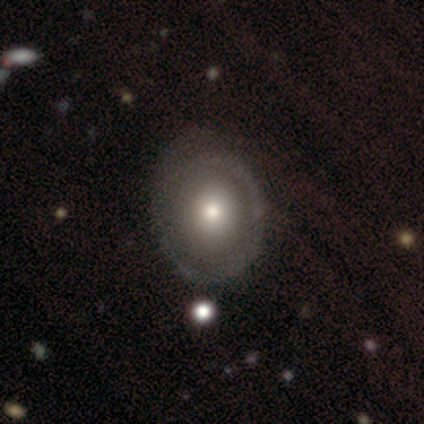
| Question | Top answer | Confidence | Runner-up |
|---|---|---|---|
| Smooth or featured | featured or disk | 80% | smooth (20%) |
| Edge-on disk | no | 100% | — |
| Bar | no | 75% | weak (25%) |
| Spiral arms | yes | 50% | tied: no (50%) |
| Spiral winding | medium | 50% | tied: loose (50%) |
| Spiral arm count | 1 | 100% | — |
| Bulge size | moderate | 50% | large (25%) |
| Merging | none | 60% | major disturbance (20%) |